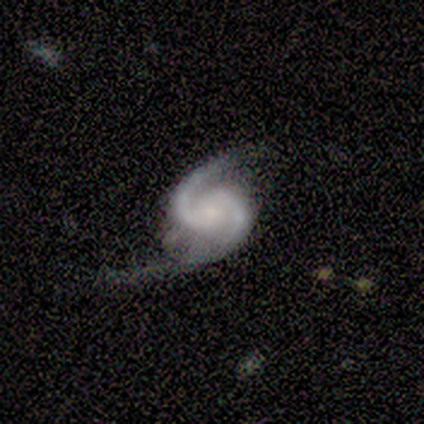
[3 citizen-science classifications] A featured or disk galaxy (67%) with a weak bar (50%, tied with no), 2 (100%) loose (100%) spiral arms (100%) and a small central bulge (50%, tied with none).

Vote fractions:
- Smooth or featured? featured or disk: 67% / star or artifact: 33% / smooth: 0%
- Edge-on disk? no: 100% / yes: 0%
- Bar? weak: 50% (tied) / no: 50% (tied) / strong: 0%
- Spiral arms? yes: 100% / no: 0%
- Spiral winding? loose: 100% / tight: 0% / medium: 0%
- Spiral arm count? 2: 100% / 1: 0% / 3: 0% / 4: 0% / more than 4: 0% / can't tell: 0%
- Bulge size? small: 50% (tied) / none: 50% (tied) / dominant: 0% / large: 0% / moderate: 0%
- Merging? minor disturbance: 50% (tied) / major disturbance: 50% (tied) / none: 0% / merger: 0%